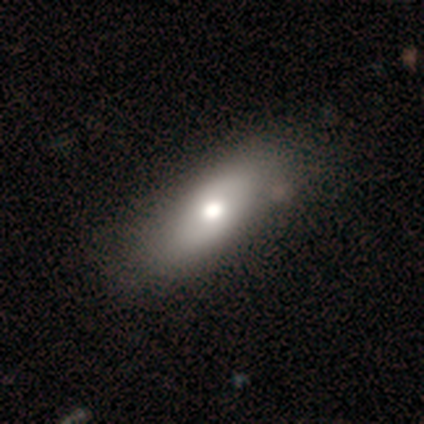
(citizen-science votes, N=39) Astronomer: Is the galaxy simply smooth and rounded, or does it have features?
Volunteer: smooth — 64%.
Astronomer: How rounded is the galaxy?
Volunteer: in between — 72%.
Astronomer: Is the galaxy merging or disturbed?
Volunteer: none — 42%.